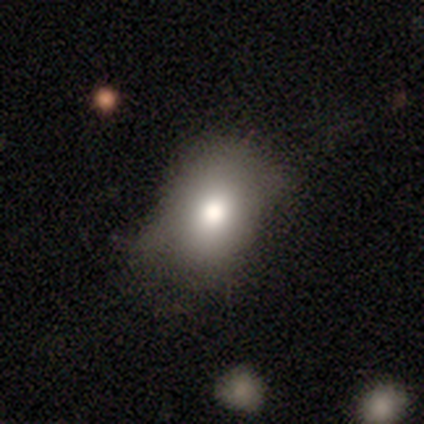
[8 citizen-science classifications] Overall: smooth (75%). How rounded: in between (100%). Merging: none (57%; major disturbance 29%).